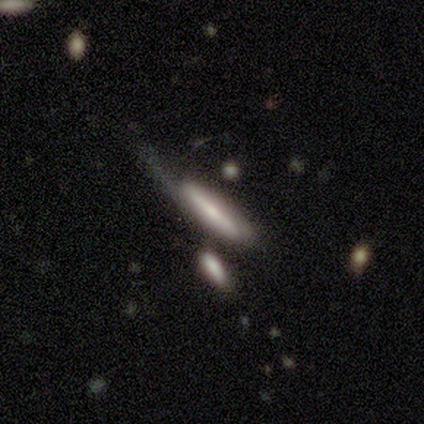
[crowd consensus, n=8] Morphology: type=smooth (62%); roundness=cigar-shaped (100%); merging=none (29%, tied with minor disturbance and major disturbance).